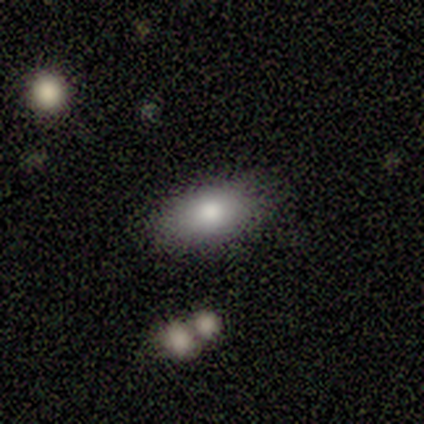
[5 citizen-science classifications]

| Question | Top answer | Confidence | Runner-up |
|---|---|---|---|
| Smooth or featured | smooth | 80% | featured or disk (20%) |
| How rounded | in between | 75% | cigar-shaped (25%) |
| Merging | none | 80% | minor disturbance (20%) |